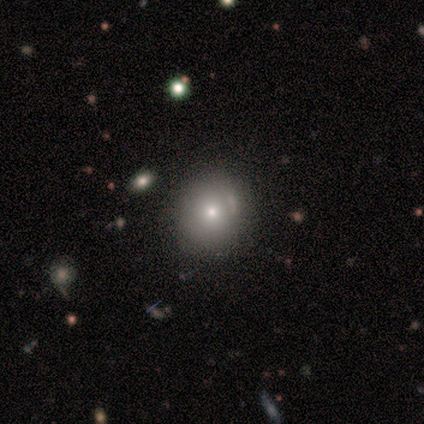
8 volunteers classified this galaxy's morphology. A smooth galaxy with no disk features (88%) that is round (100%). Merging: none (100%).